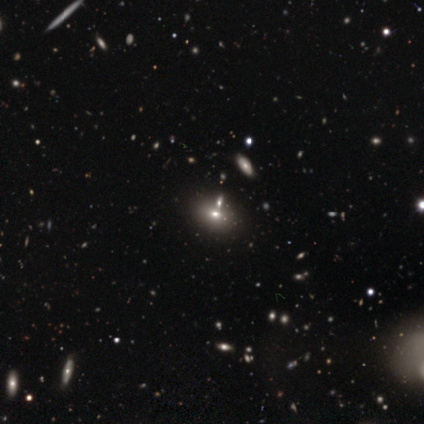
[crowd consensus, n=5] smooth 40% (tied), star or artifact 40% (tied), featured or disk 20%. Down the decision tree: how rounded — in between (100%); merging — none (67%).